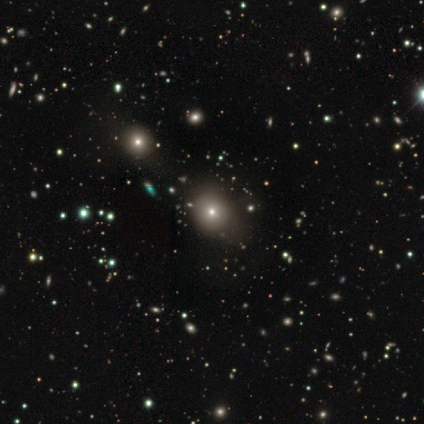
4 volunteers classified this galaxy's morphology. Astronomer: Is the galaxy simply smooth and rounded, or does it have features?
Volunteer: star or artifact — 75%.